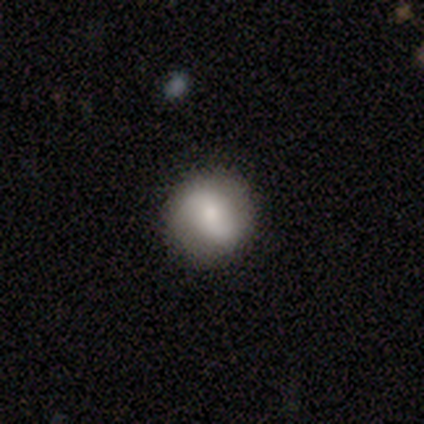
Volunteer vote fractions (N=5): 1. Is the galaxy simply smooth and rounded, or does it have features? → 100% smooth, 0% featured or disk, 0% star or artifact.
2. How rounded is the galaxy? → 60% round, 40% in between, 0% cigar-shaped.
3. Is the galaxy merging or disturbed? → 100% none, 0% minor disturbance, 0% major disturbance, 0% merger.